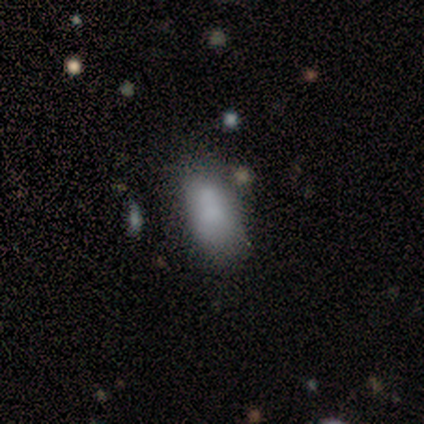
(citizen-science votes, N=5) This appears to be a smooth galaxy with no disk features (80%) that is in between round and cigar-shaped (100%). Merging: none (75%).